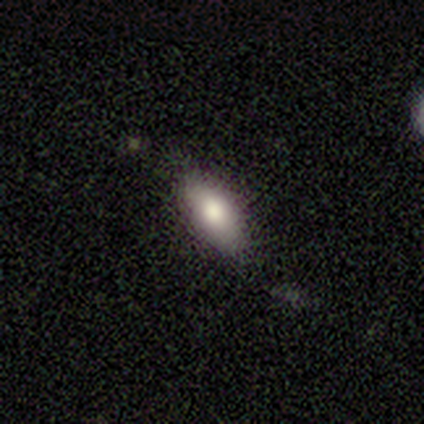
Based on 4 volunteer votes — Smooth or featured? smooth (75%)
How rounded? in between (100%)
Merging? none (67%)